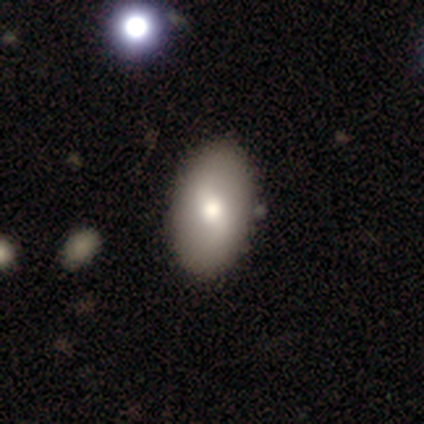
Smooth or featured? featured or disk (40%, tied with star or artifact)
Edge-on disk? no (100%)
Bar? weak (50%, tied with no)
Spiral arms? yes (100%)
Spiral winding? loose (100%)
Spiral arm count? 2 (100%)
Bulge size? moderate (100%)
Merging? none (100%)